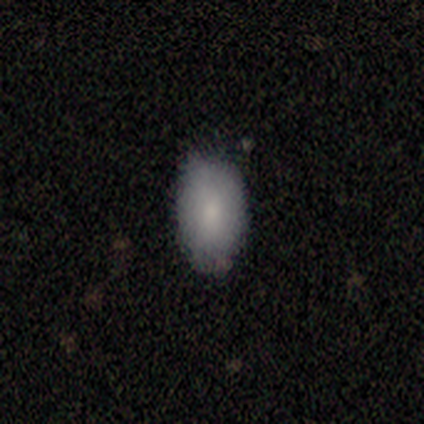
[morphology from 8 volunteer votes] This appears to be a smooth galaxy with no disk features (88%) that is in between round and cigar-shaped (100%). Merging: none (75%).